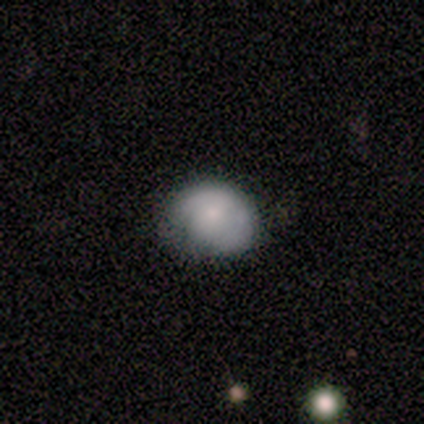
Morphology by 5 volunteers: Overall: smooth (100%). How rounded: round (80%). Merging: none (80%).